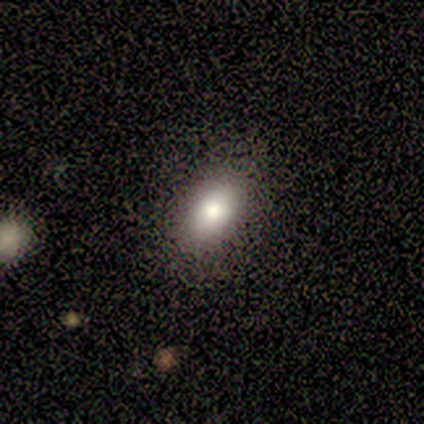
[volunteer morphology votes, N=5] A smooth galaxy with no disk features (100%) that is in between round and cigar-shaped (100%).

Vote fractions:
- Smooth or featured? smooth: 100% / featured or disk: 0% / star or artifact: 0%
- How rounded? in between: 100% / round: 0% / cigar-shaped: 0%
- Merging? none: 100% / minor disturbance: 0% / major disturbance: 0% / merger: 0%